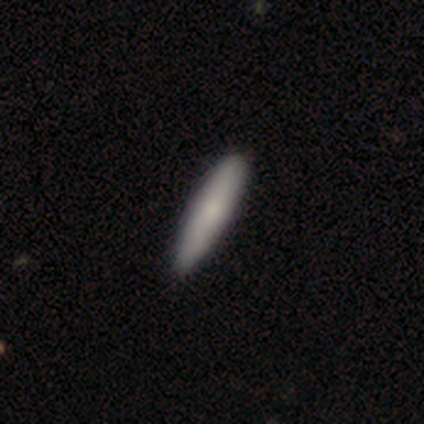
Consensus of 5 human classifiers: Smooth or featured?
  - smooth: 80% *
  - featured or disk: 20%
  - star or artifact: 0%
How rounded?
  - cigar-shaped: 75% *
  - in between: 25%
  - round: 0%
Merging?
  - none: 80% *
  - minor disturbance: 20%
  - major disturbance: 0%
  - merger: 0%